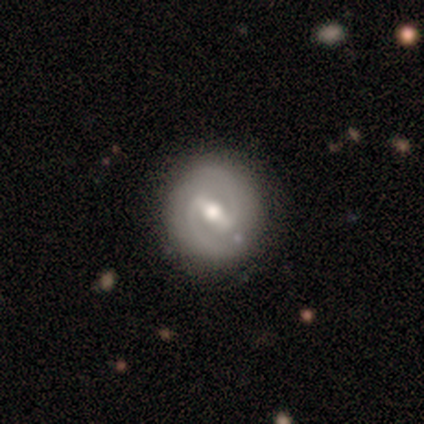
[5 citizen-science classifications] Morphology: type=featured or disk (60%); edge-on=no (100%); bar=strong (67%); spiral arms=yes (100%); winding=medium (67%); arm count=2 (100%); bulge=moderate (67%); merging=none (100%).